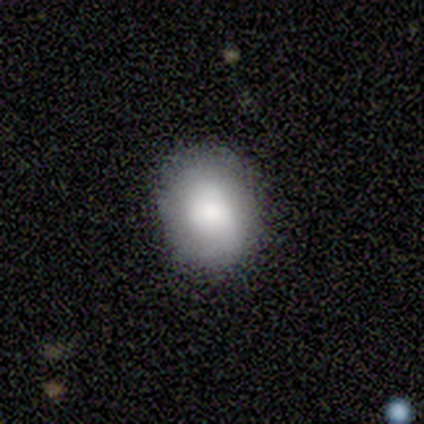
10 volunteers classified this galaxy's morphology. Smooth or featured? 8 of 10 (80%) said smooth. How rounded? 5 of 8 (62%) said in between. Merging? 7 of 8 (88%) said none.